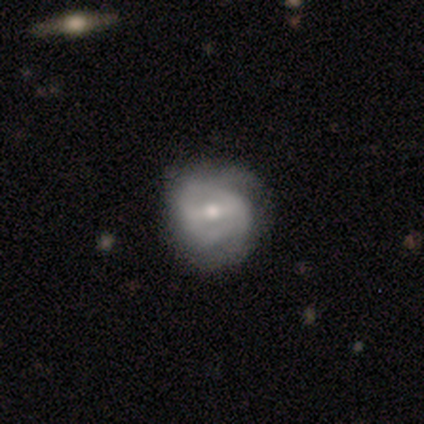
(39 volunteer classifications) smooth_or_featured: featured or disk (p=0.74) [alt: smooth p=0.26]
disk_edge_on: no (p=0.97) [alt: yes p=0.03]
bar: strong (p=0.46) [alt: weak p=0.39]
has_spiral_arms: yes (p=0.64) [alt: no p=0.36]
spiral_winding: tight (p=0.61) [alt: medium p=0.33]
spiral_arm_count: can't tell (p=0.44) [alt: 2 p=0.33]
bulge_size: moderate (p=0.71) [alt: small p=0.25]
merging: none (p=0.51) [alt: minor disturbance p=0.10]